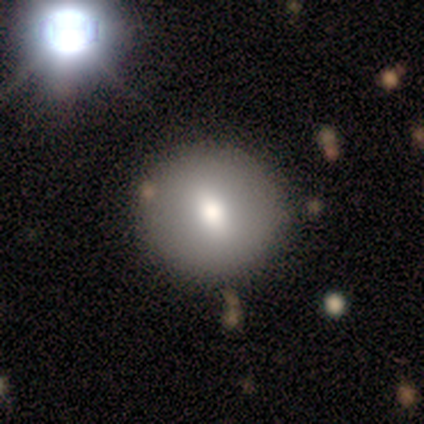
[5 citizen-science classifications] This appears to be a smooth galaxy with no disk features (80%) that is round (100%). Merging: none (80%).